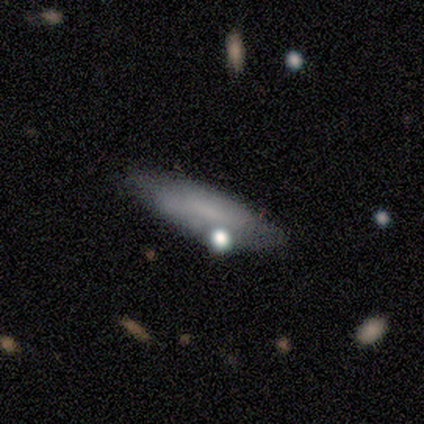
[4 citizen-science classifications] This is possibly a smooth galaxy (50%). How rounded: clearly in between (100%). Merging: likely none (67%).